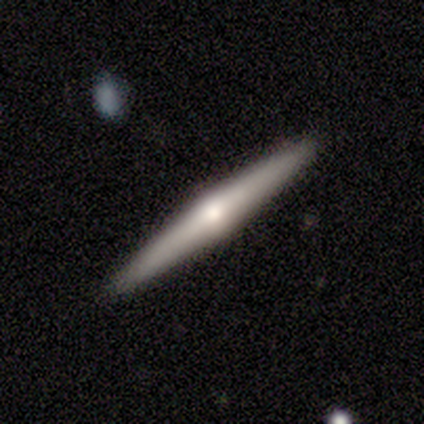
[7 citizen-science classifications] Smooth or featured? featured or disk (71%)
Edge-on disk? yes (100%)
Edge-on bulge? rounded (100%)
Merging? none (86%)